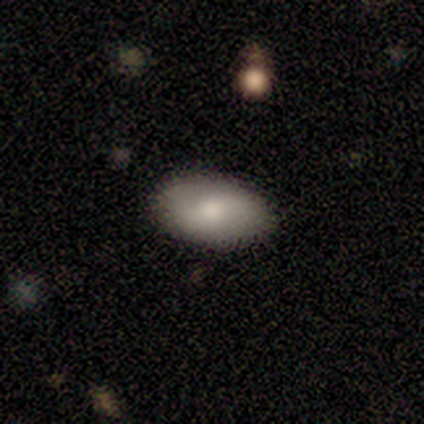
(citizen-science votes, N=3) Q: Smooth or featured?
A: smooth (67%); runner-up: star or artifact (33%)
Q: How rounded?
A: in between (100%)
Q: Merging?
A: none (100%)